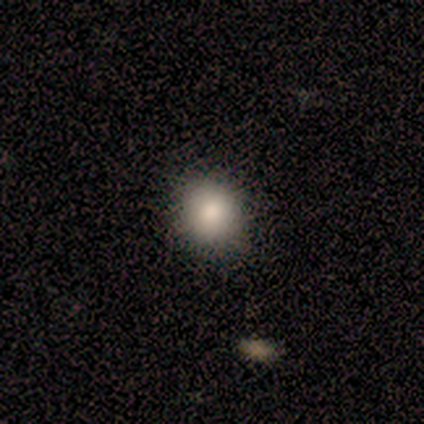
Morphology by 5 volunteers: smooth_or_featured: smooth (p=1.00)
how_rounded: round (p=1.00)
merging: none (p=0.80) [alt: minor disturbance p=0.20]